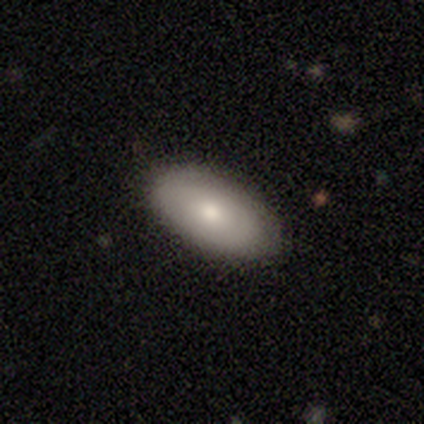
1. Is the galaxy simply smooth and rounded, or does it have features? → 60% smooth, 40% featured or disk, 0% star or artifact.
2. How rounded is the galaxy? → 100% in between, 0% round, 0% cigar-shaped.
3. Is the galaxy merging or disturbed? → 100% none, 0% minor disturbance, 0% major disturbance, 0% merger.